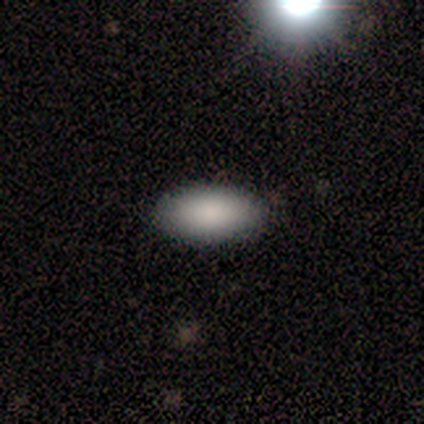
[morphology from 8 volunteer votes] type=smooth (100%); roundness=in between (100%); merging=none (75%).